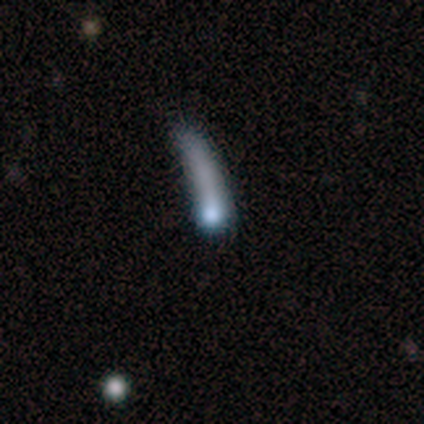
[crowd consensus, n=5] A smooth galaxy with no disk features (60%) that is cigar-shaped (100%).

Vote fractions:
- Smooth or featured? smooth: 60% / featured or disk: 20% / star or artifact: 20%
- How rounded? cigar-shaped: 100% / round: 0% / in between: 0%
- Merging? minor disturbance: 50% (tied) / major disturbance: 50% (tied) / none: 0% / merger: 0%